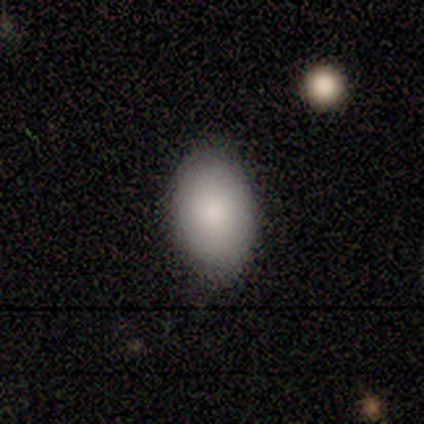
smooth_or_featured: smooth (p=0.90) [alt: star or artifact p=0.07]
how_rounded: in between (p=0.92) [alt: round p=0.08]
merging: none (p=0.89) [alt: minor disturbance p=0.11]